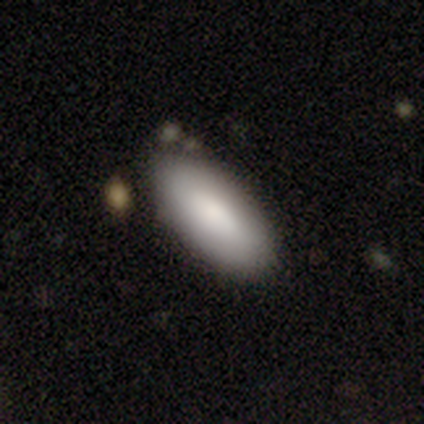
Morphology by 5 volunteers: Smooth or featured?
  - smooth: 80% *
  - featured or disk: 20%
  - star or artifact: 0%
How rounded?
  - in between: 100% *
  - round: 0%
  - cigar-shaped: 0%
Merging?
  - none: 100% *
  - minor disturbance: 0%
  - major disturbance: 0%
  - merger: 0%